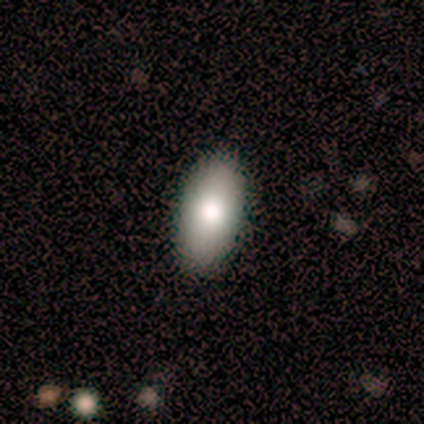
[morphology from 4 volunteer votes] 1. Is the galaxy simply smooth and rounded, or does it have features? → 75% smooth, 25% star or artifact, 0% featured or disk.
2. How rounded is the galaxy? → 67% in between, 33% cigar-shaped, 0% round.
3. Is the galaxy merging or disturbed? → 67% none, 33% major disturbance, 0% minor disturbance, 0% merger.